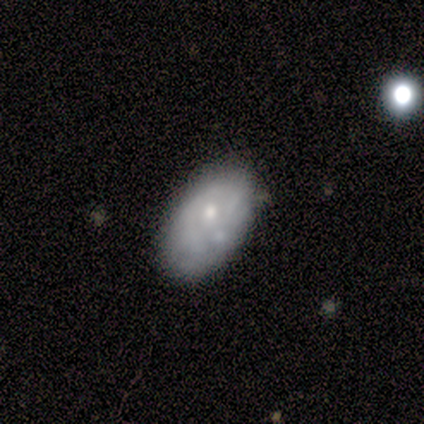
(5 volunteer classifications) A featured or disk galaxy (60%) with no bar (100%), 1 (50%, tied with can't tell) tight (100%) spiral arms (67%) and a moderate central bulge (67%). Merging: none (50%).